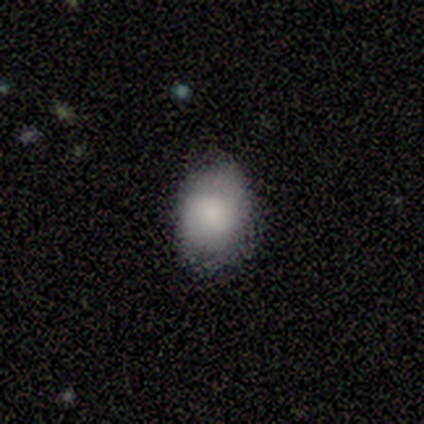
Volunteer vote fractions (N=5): Overall: featured or disk (60%; smooth 40%). Edge-on disk: no (100%). Bar: no (67%; weak 33%). Spiral arms: yes (67%; no 33%). Spiral arm count: 2 (50%, tied with can't tell). Spiral winding: tight (50%, tied with loose). Bulge size: small (67%; large 33%). Merging: none (60%; minor disturbance 40%).